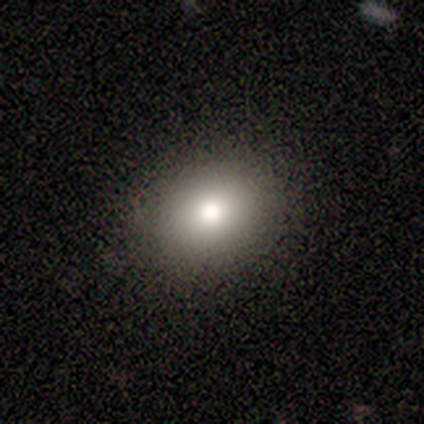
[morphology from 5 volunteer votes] Smooth or featured? 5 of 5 (100%) said smooth. How rounded? 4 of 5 (80%) said in between. Merging? 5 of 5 (100%) said none.